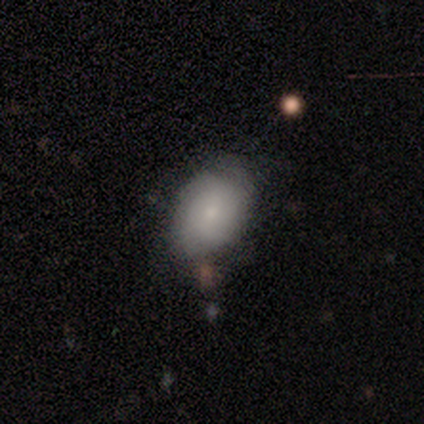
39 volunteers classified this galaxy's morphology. Volunteers were most divided on "merging" (2-way tie): none: 44%, minor disturbance: 44%, major disturbance: 8%, merger: 3%. More confident: how rounded — in between (78%); smooth or featured — smooth (59%).